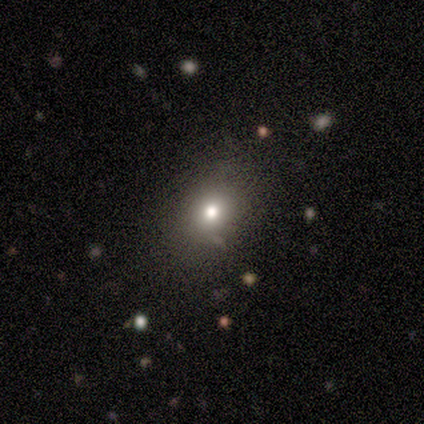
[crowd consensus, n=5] smooth 60%, featured or disk 20%, star or artifact 20%. Down the decision tree: how rounded — in between (67%); merging — none (100%).